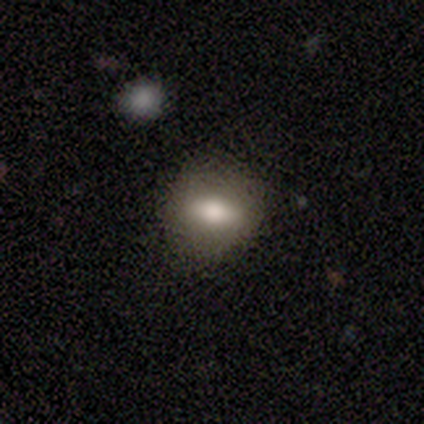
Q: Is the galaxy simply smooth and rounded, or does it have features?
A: smooth — 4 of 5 (80%).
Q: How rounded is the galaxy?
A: round — 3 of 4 (75%).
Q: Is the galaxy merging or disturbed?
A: none — 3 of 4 (75%).